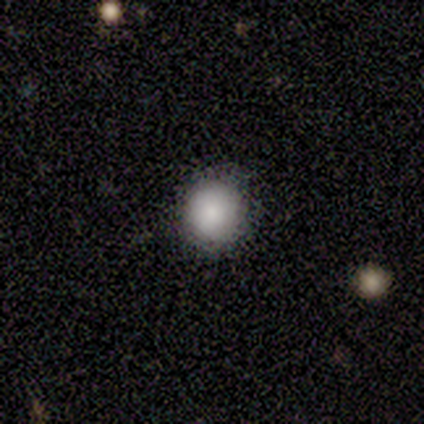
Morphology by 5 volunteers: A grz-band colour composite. It shows a smooth galaxy with no disk features (100%) that is round (80%). Merging: none (60%).